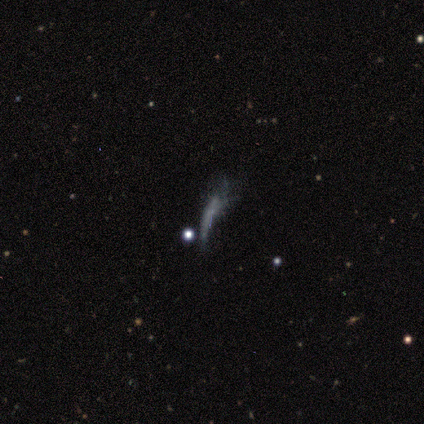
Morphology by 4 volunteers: Smooth or featured? smooth (50%, tied with star or artifact)
How rounded? cigar-shaped (100%)
Merging? major disturbance (100%)